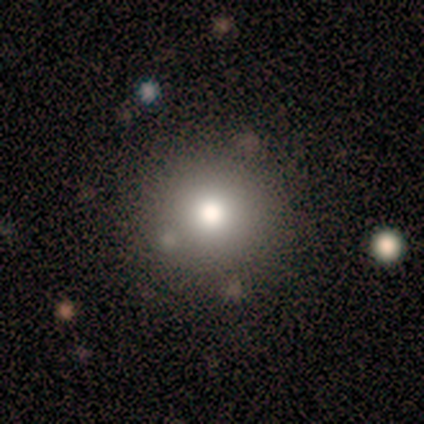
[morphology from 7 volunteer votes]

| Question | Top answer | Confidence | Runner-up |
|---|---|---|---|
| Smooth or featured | smooth | 57% | featured or disk (43%) |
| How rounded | round | 75% | in between (25%) |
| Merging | none | 100% | — |